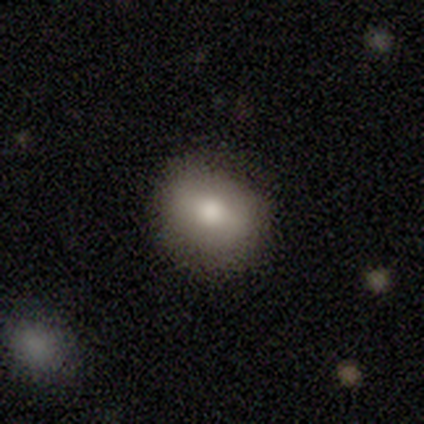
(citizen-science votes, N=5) Morphology: type=smooth (80%); roundness=round (50%, tied with in between); merging=minor disturbance (60%).